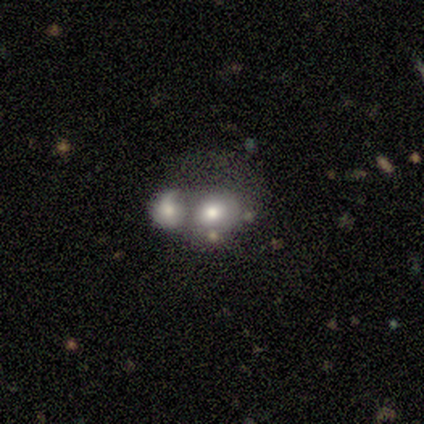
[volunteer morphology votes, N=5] Q: Smooth or featured?
A: smooth (40%); tied with: star or artifact (40%)
Q: How rounded?
A: round (100%)
Q: Merging?
A: merger (67%); runner-up: major disturbance (33%)